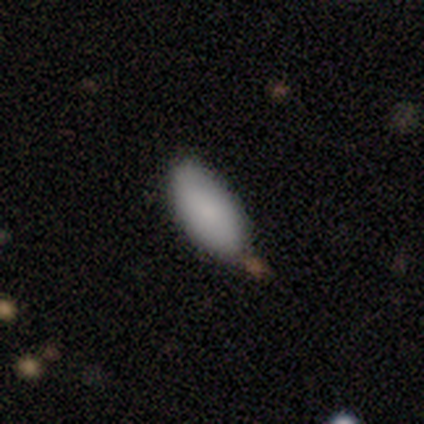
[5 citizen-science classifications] Smooth or featured? smooth (80%)
How rounded? in between (100%)
Merging? none (60%)